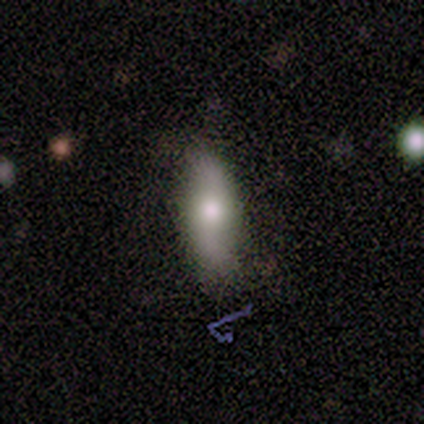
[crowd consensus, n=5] smooth 60%, featured or disk 40%, star or artifact 0%. Down the decision tree: how rounded — round (33%, tied with in between and cigar-shaped); merging — none (40%, tied with minor disturbance).